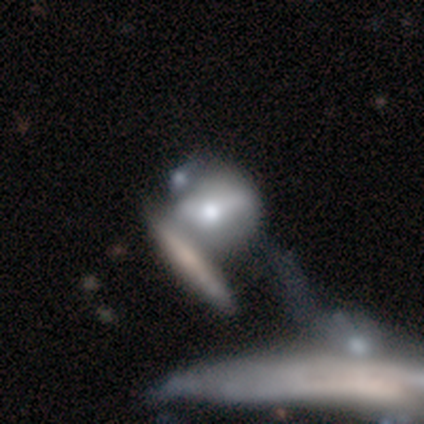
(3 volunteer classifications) Smooth or featured?
  - smooth: 33% * (tied)
  - featured or disk: 33% * (tied)
  - star or artifact: 33% * (tied)
How rounded?
  - round: 100% *
  - in between: 0%
  - cigar-shaped: 0%
Merging?
  - none: 50% * (tied)
  - merger: 50% * (tied)
  - minor disturbance: 0%
  - major disturbance: 0%